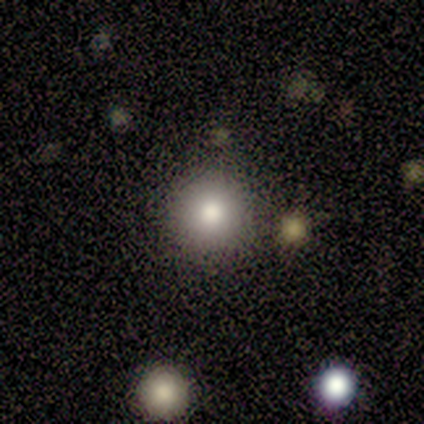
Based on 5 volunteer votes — smooth 100%, featured or disk 0%, star or artifact 0%. Down the decision tree: how rounded — round (80%); merging — none (100%).